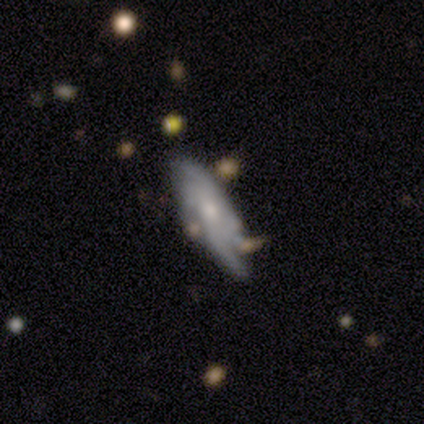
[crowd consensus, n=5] Overall: featured or disk (100%). Edge-on disk: no (100%). Bar: weak (60%; no 40%). Spiral arms: yes (80%). Spiral arm count: 4 (50%; 3 25%). Spiral winding: loose (75%). Bulge size: moderate (60%; small 40%). Merging: none (100%).